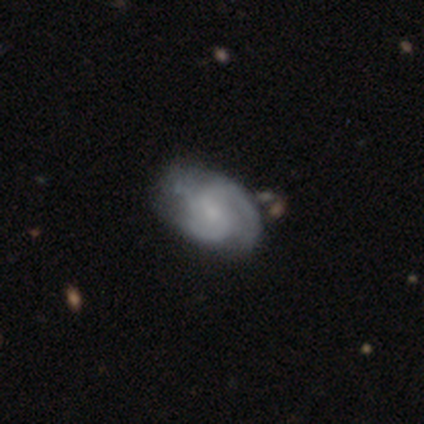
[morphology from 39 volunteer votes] A featured or disk galaxy (87%) with a weak bar (50%, tied with no), 2 (59%) medium (50%) spiral arms (94%) and a small central bulge (50%). Merging: none (45%).